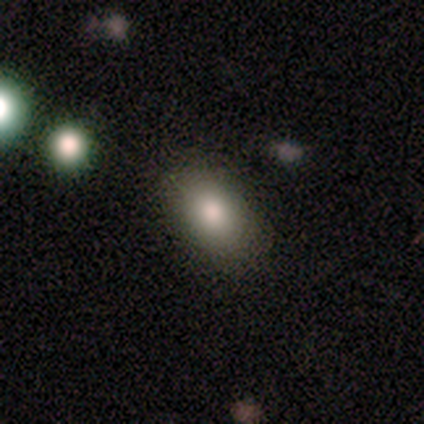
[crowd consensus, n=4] This is possibly a smooth galaxy (50%). How rounded: possibly round (50%, tied with in between). Merging: clearly none (100%).